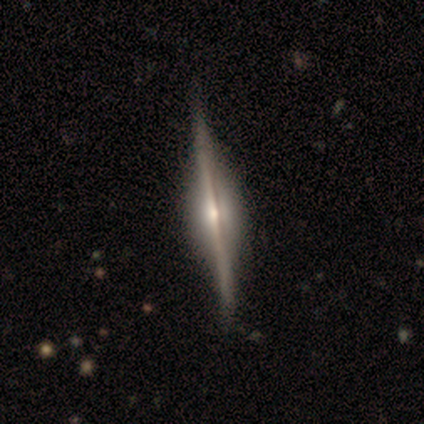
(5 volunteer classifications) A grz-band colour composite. It shows a featured or disk galaxy (100%) viewed edge-on (100%) with a rounded central bulge (60%). Merging: none (100%).